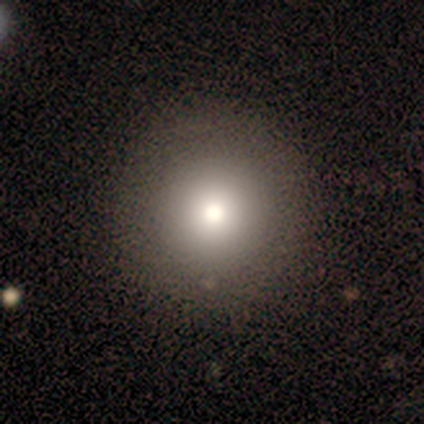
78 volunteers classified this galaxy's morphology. smooth 83%, star or artifact 10%, featured or disk 6%. Down the decision tree: how rounded — round (95%); merging — none (51%).